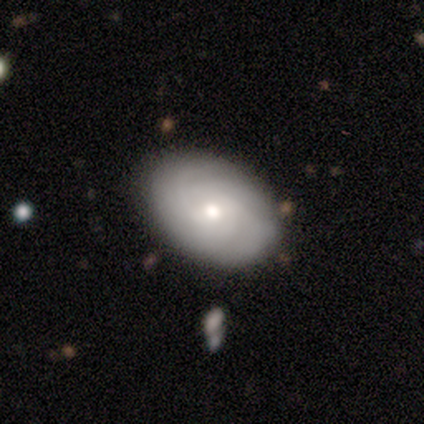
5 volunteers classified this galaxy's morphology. Q: Smooth or featured?
A: featured or disk (80%); runner-up: star or artifact (20%)
Q: Edge-on disk?
A: no (100%)
Q: Bar?
A: weak (50%); tied with: no (50%)
Q: Spiral arms?
A: yes (100%)
Q: Spiral winding?
A: tight (50%); tied with: loose (50%)
Q: Spiral arm count?
A: can't tell (50%); runner-up: 2 (25%)
Q: Bulge size?
A: moderate (50%); tied with: small (50%)
Q: Merging?
A: none (100%)